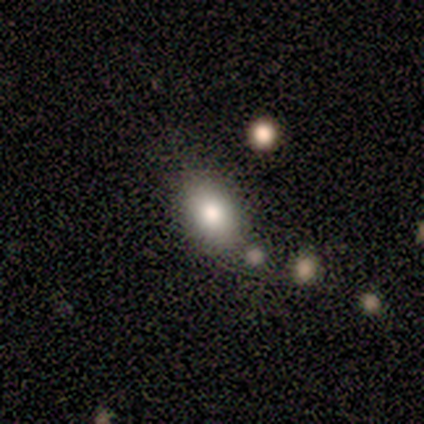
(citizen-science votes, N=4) A smooth galaxy with no disk features (100%) that is round (50%, tied with in between). Merging: none (100%).